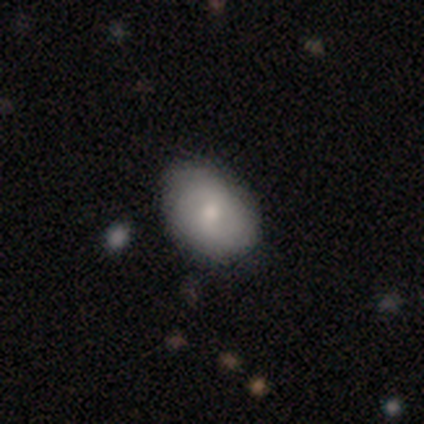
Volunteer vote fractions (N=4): A featured or disk galaxy (75%) with a strong bar (33%, tied with weak and no), 2 (67%) medium (67%) spiral arms (100%) and a moderate central bulge (67%). Merging: none (75%).